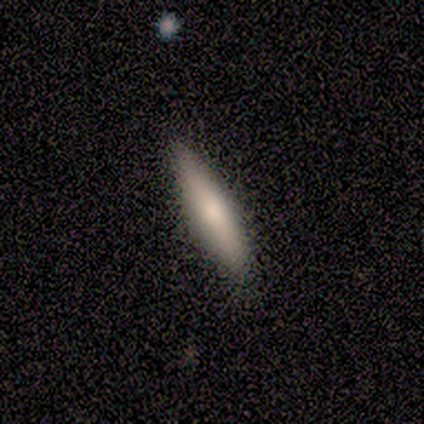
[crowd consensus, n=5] A smooth galaxy with no disk features (40%, tied with featured or disk) that is cigar-shaped (100%). Merging: none (100%).